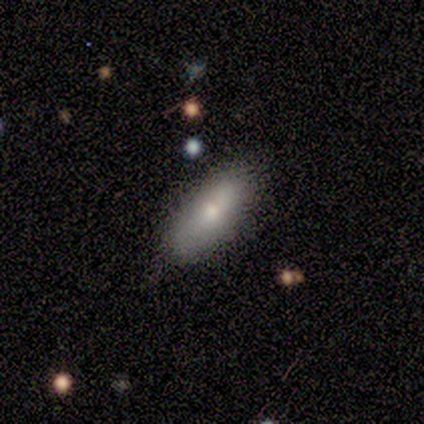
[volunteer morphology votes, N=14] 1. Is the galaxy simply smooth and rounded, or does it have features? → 64% smooth, 36% featured or disk, 0% star or artifact.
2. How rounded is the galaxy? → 56% in between, 44% cigar-shaped, 0% round.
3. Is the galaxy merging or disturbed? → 86% none, 14% minor disturbance, 0% major disturbance, 0% merger.